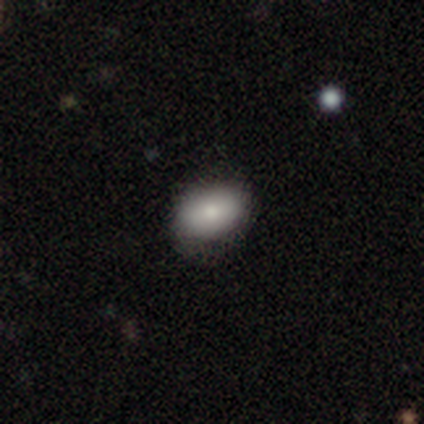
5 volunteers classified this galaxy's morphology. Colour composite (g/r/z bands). It shows a smooth galaxy with no disk features (60%) that is in between round and cigar-shaped (100%). Merging: none (75%).